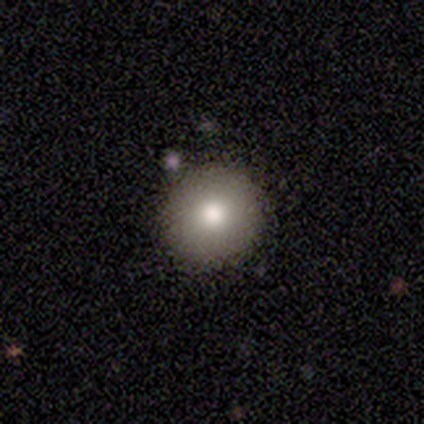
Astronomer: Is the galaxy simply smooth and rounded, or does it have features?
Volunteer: smooth — 80%.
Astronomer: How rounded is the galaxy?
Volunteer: round — 100%.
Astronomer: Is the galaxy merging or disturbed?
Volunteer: none — 100%.